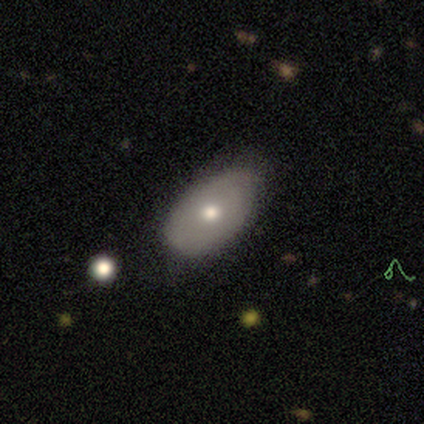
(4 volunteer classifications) A smooth galaxy with no disk features (75%) that is in between round and cigar-shaped (100%).

Vote fractions:
- Smooth or featured? smooth: 75% / featured or disk: 25% / star or artifact: 0%
- How rounded? in between: 100% / round: 0% / cigar-shaped: 0%
- Merging? none: 75% / minor disturbance: 25% / major disturbance: 0% / merger: 0%